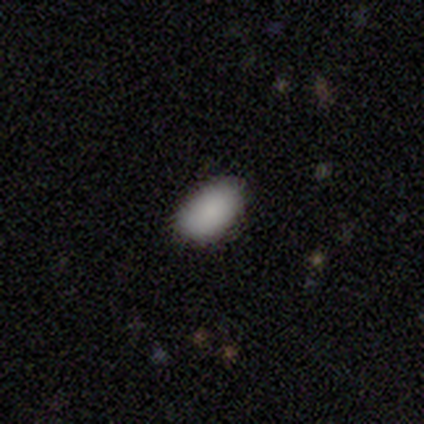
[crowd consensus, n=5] smooth_or_featured: smooth (p=0.80) [alt: star or artifact p=0.20]
how_rounded: in between (p=1.00)
merging: none (p=1.00)